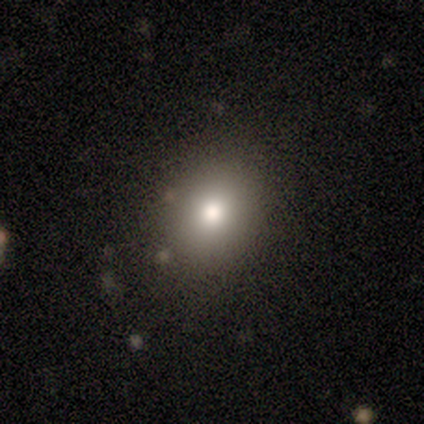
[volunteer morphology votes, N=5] smooth 80%, star or artifact 20%, featured or disk 0%. Down the decision tree: how rounded — round (75%); merging — none (100%).